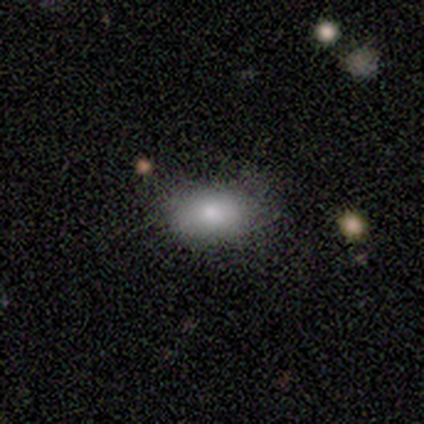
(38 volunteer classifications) Smooth or featured?
  - smooth: 74% *
  - featured or disk: 16%
  - star or artifact: 11%
How rounded?
  - in between: 82% *
  - round: 14%
  - cigar-shaped: 4%
Merging?
  - none: 91% *
  - minor disturbance: 9%
  - major disturbance: 0%
  - merger: 0%